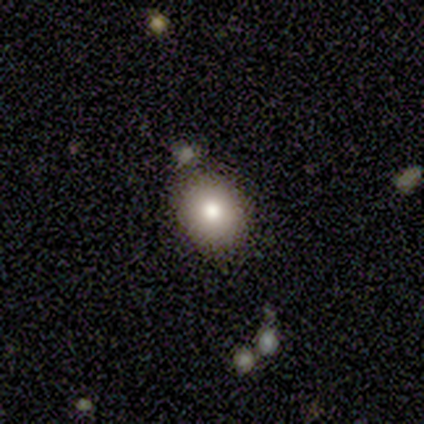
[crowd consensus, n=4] smooth 100%, featured or disk 0%, star or artifact 0%. Down the decision tree: how rounded — round (75%); merging — none (100%).